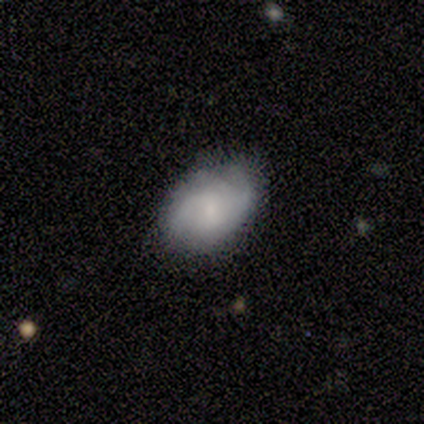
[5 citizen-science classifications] This is likely a featured or disk galaxy (60%). It is clearly not viewed edge-on (100%). Bar: likely no (67%). Spiral arm pattern: clearly yes (100%). Spiral arm count: likely can't tell (67%). Spiral winding: likely tight (67%). Central bulge: clearly small (100%). Merging: clearly none (80%).